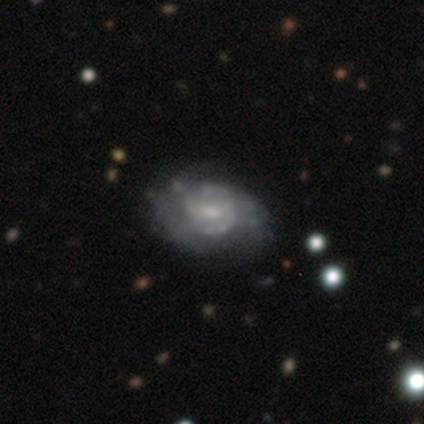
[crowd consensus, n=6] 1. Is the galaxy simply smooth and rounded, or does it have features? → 83% featured or disk, 17% smooth, 0% star or artifact.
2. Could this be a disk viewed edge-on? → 100% no, 0% yes.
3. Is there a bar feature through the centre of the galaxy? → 80% weak, 20% no, 0% strong.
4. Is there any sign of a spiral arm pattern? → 100% yes, 0% no.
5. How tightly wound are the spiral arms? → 60% tight, 40% medium, 0% loose.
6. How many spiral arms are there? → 40% 2 (tied), 40% 3 (tied), 20% can't tell, 0% 1, 0% 4, 0% more than 4.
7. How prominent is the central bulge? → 60% small, 40% moderate, 0% dominant, 0% large, 0% none.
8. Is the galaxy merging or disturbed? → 67% none, 33% minor disturbance, 0% major disturbance, 0% merger.